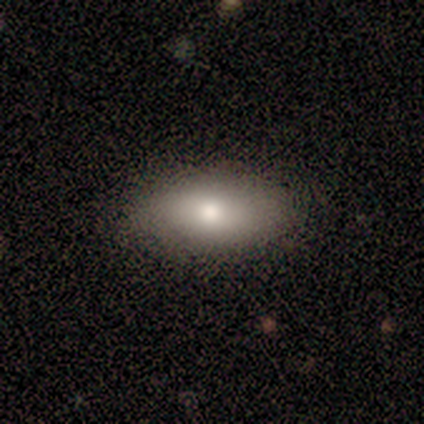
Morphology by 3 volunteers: Smooth or featured? 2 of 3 (67%) said smooth. How rounded? 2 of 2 (100%) said in between. Merging? 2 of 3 (67%) said none.